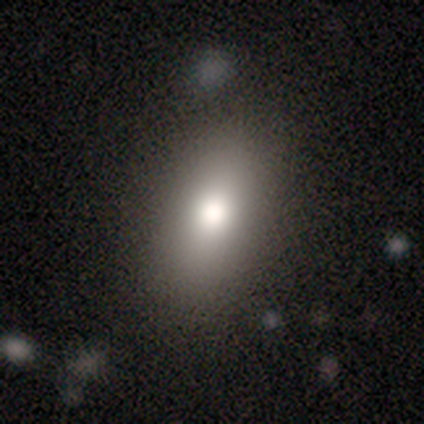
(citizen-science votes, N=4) Overall: smooth (75%). How rounded: in between (100%). Merging: none (67%; minor disturbance 33%).